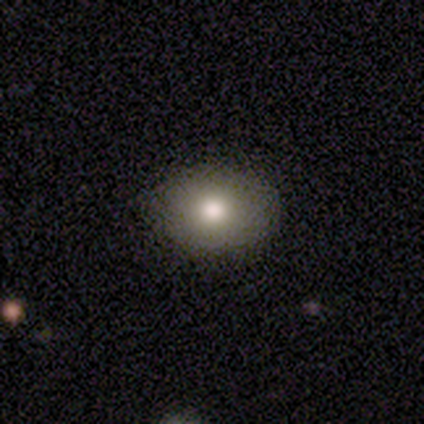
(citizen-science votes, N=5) Overall: star or artifact (60%; smooth 20%).